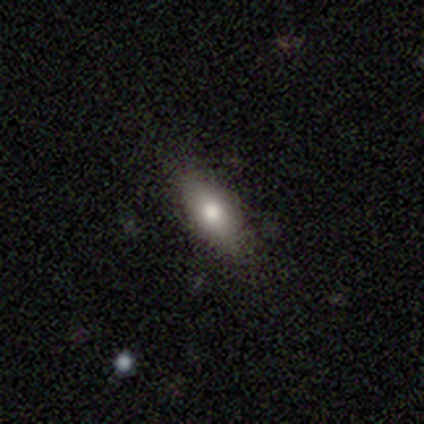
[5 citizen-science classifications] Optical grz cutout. It shows a smooth galaxy with no disk features (80%) that is in between round and cigar-shaped (75%). Merging: none (60%).